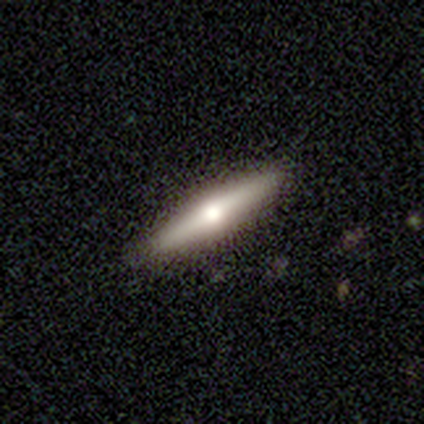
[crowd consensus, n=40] This is likely a featured or disk galaxy (68%). It is clearly viewed edge-on (100%). Edge-on bulge: clearly rounded (96%). Merging: clearly none (90%).